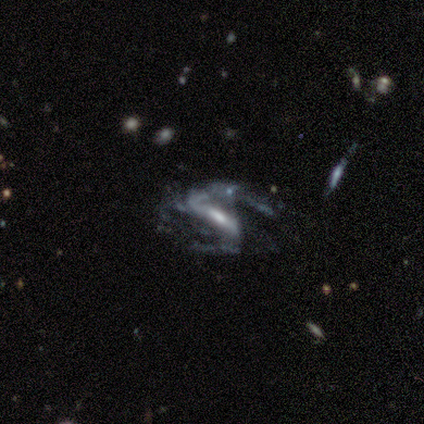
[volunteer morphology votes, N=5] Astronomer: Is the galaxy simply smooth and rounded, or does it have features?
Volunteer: featured or disk — 80%.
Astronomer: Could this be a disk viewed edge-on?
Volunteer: no — 100%.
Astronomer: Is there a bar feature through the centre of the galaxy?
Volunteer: strong — 50%, tied with weak at 50%.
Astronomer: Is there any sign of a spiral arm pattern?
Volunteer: yes — 75%.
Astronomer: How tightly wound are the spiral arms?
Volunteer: loose — 67%.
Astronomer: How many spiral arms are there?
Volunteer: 2 — 100%.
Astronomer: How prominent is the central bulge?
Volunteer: moderate — 50%.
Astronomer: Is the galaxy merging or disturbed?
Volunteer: major disturbance — 60%.